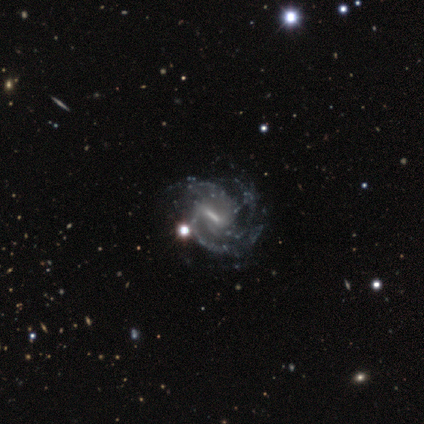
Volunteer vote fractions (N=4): smooth_or_featured: featured or disk (p=0.75) [alt: star or artifact p=0.25]
disk_edge_on: no (p=1.00)
bar: strong (p=1.00)
has_spiral_arms: yes (p=1.00)
spiral_winding: medium (p=1.00)
spiral_arm_count: 3 (p=0.67) [alt: can't tell p=0.33]
bulge_size: moderate (p=0.67) [alt: small p=0.33]
merging: none (p=0.67) [alt: major disturbance p=0.33]